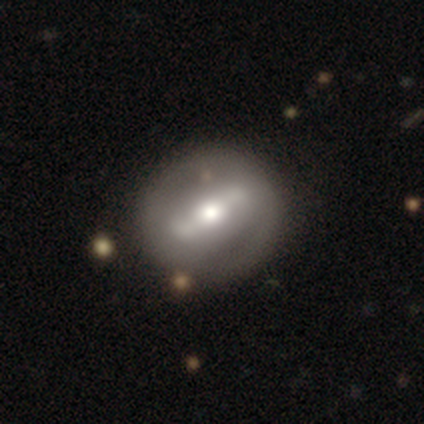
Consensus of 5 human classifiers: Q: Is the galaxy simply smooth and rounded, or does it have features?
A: smooth — 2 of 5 (40%, tied with featured or disk).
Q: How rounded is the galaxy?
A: round — 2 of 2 (100%).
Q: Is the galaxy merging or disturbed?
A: none — 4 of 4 (100%).